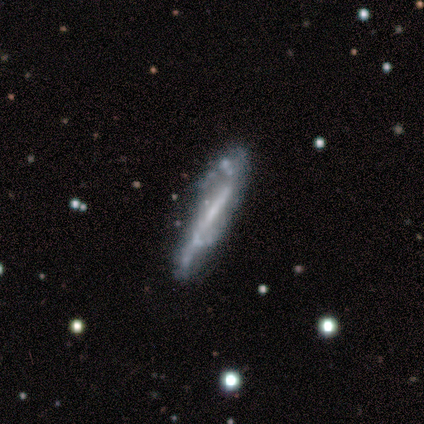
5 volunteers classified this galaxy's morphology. Smooth or featured? featured or disk (60%)
Edge-on disk? yes (100%)
Edge-on bulge? none (67%)
Merging? none (80%)